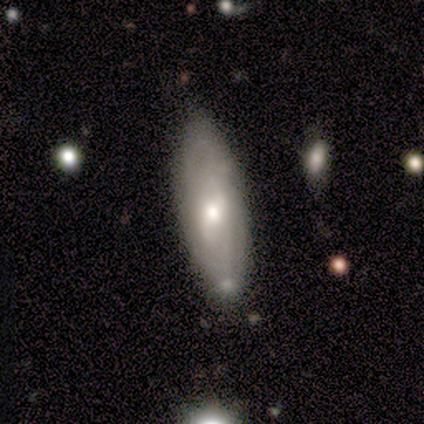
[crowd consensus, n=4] smooth_or_featured: smooth (p=0.50) [tied with: featured or disk p=0.50]
how_rounded: cigar-shaped (p=1.00)
merging: none (p=0.75) [alt: merger p=0.25]